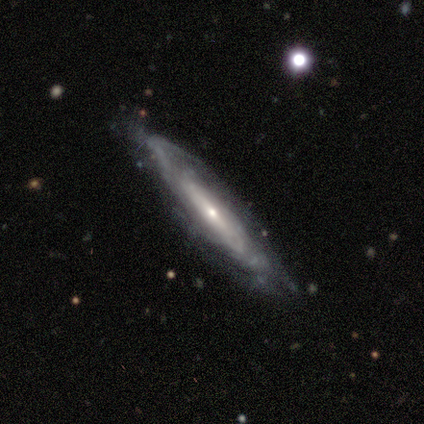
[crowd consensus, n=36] Smooth or featured?
  - featured or disk: 86% *
  - smooth: 11%
  - star or artifact: 3%
Edge-on disk?
  - no: 65% *
  - yes: 35%
Bar?
  - weak: 45% *
  - no: 40%
  - strong: 15%
Spiral arms?
  - yes: 90% *
  - no: 10%
Spiral winding?
  - tight: 61% *
  - medium: 22%
  - loose: 17%
Spiral arm count?
  - can't tell: 78% *
  - 2: 22%
  - 1: 0%
  - 3: 0%
  - 4: 0%
  - more than 4: 0%
Bulge size?
  - small: 70% *
  - moderate: 20%
  - dominant: 5%
  - large: 5%
  - none: 0%
Merging?
  - none: 77% *
  - minor disturbance: 20%
  - major disturbance: 3%
  - merger: 0%